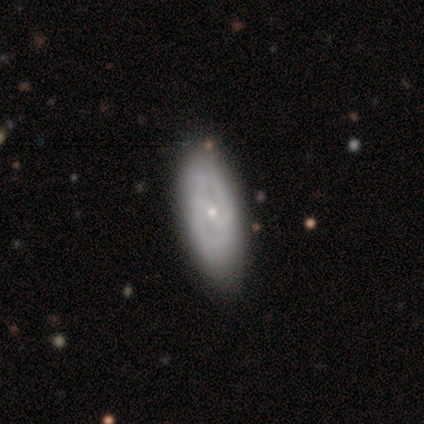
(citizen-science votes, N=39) Q: Smooth or featured?
A: featured or disk (82%); runner-up: smooth (18%)
Q: Edge-on disk?
A: no (94%); runner-up: yes (6%)
Q: Bar?
A: weak (53%); runner-up: strong (30%)
Q: Spiral arms?
A: yes (87%); runner-up: no (13%)
Q: Spiral winding?
A: medium (46%); runner-up: tight (38%)
Q: Spiral arm count?
A: 2 (73%); runner-up: can't tell (23%)
Q: Bulge size?
A: small (77%); runner-up: moderate (23%)
Q: Merging?
A: none (59%); runner-up: minor disturbance (5%)